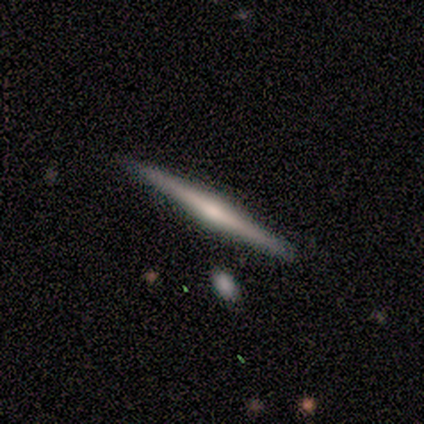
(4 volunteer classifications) smooth_or_featured: featured or disk (p=0.75) [alt: smooth p=0.25]
disk_edge_on: yes (p=1.00)
edge_on_bulge: rounded (p=0.67) [alt: boxy p=0.33]
merging: none (p=0.75) [alt: merger p=0.25]